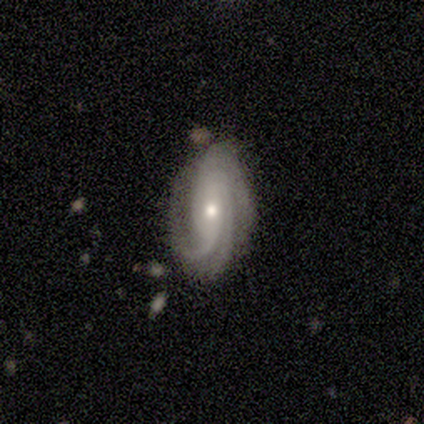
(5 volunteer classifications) A featured or disk galaxy (80%) with no bar (50%), 3 (75%) tight (100%) spiral arms (100%) and a moderate central bulge (50%, tied with small).

Vote fractions:
- Smooth or featured? featured or disk: 80% / star or artifact: 20% / smooth: 0%
- Edge-on disk? no: 100% / yes: 0%
- Bar? no: 50% / strong: 25% / weak: 25%
- Spiral arms? yes: 100% / no: 0%
- Spiral winding? tight: 100% / medium: 0% / loose: 0%
- Spiral arm count? 3: 75% / 2: 25% / 1: 0% / 4: 0% / more than 4: 0% / can't tell: 0%
- Bulge size? moderate: 50% (tied) / small: 50% (tied) / dominant: 0% / large: 0% / none: 0%
- Merging? none: 75% / minor disturbance: 25% / major disturbance: 0% / merger: 0%